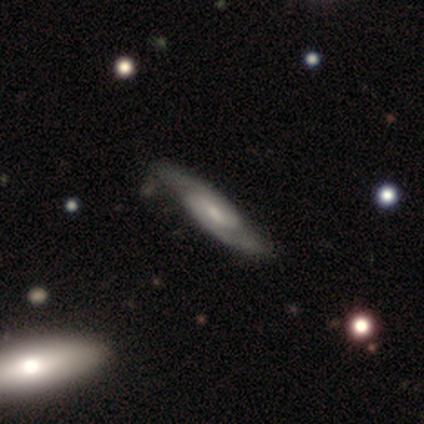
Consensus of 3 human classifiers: Morphology: type=featured or disk (67%); edge-on=no (100%); bar=weak (100%); spiral arms=yes (50%, tied with no); winding=loose (100%); arm count=can't tell (100%); bulge=moderate (50%, tied with small); merging=none (67%).